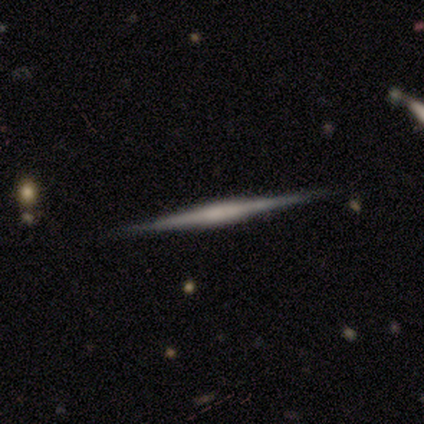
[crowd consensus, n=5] smooth_or_featured: featured or disk (p=1.00)
disk_edge_on: yes (p=1.00)
edge_on_bulge: boxy (p=0.40) [tied with: none p=0.40]
merging: none (p=1.00)